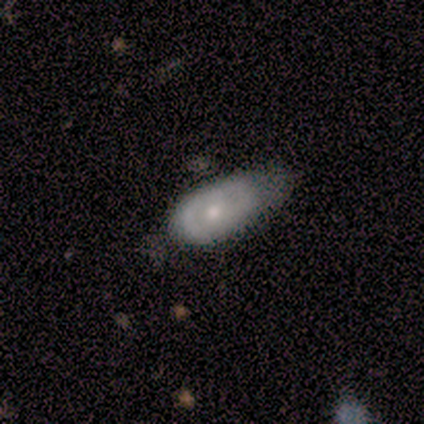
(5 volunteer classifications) A smooth galaxy with no disk features (60%) that is in between round and cigar-shaped (100%). Merging: major disturbance (80%).